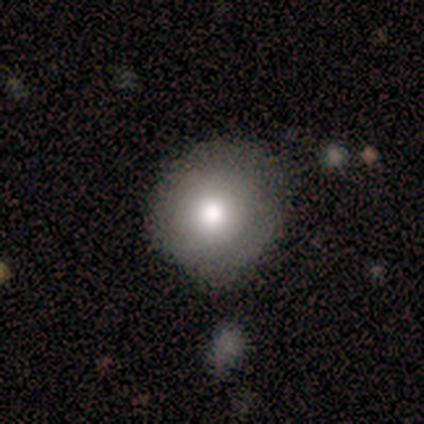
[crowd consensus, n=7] A smooth galaxy with no disk features (71%) that is round (100%).

Vote fractions:
- Smooth or featured? smooth: 71% / featured or disk: 29% / star or artifact: 0%
- How rounded? round: 100% / in between: 0% / cigar-shaped: 0%
- Merging? none: 71% / minor disturbance: 29% / major disturbance: 0% / merger: 0%